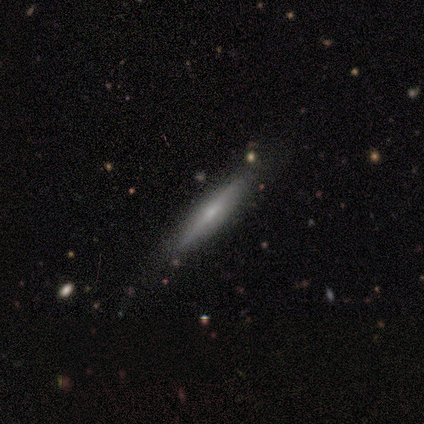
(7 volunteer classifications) Volunteers were most divided on "smooth or featured": smooth: 57%, featured or disk: 43%, star or artifact: 0%. More confident: how rounded — cigar-shaped (100%); merging — none (71%).